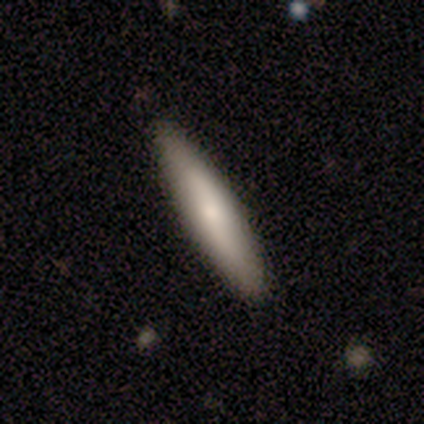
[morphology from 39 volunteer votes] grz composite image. It shows a smooth galaxy with no disk features (51%) that is cigar-shaped (100%). Merging: none (94%).